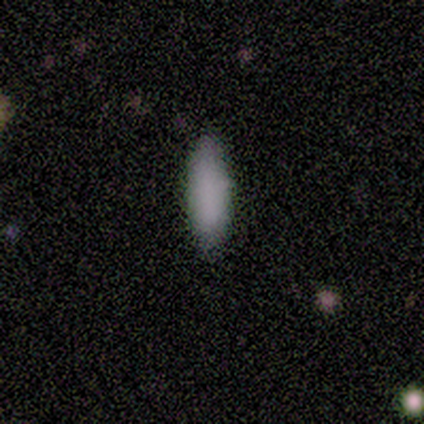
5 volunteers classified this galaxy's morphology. This appears to be a smooth galaxy with no disk features (100%) that is cigar-shaped (60%). Merging: none (100%).